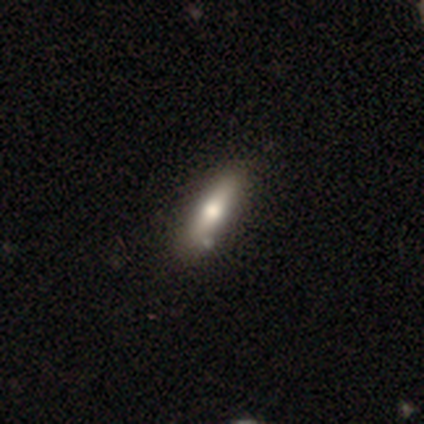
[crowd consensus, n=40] This appears to be a smooth galaxy with no disk features (75%) that is cigar-shaped (80%). Merging: none (62%).